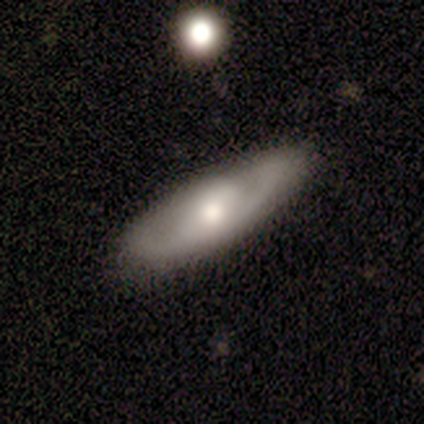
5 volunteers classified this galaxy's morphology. Smooth or featured?
  - featured or disk: 80% *
  - smooth: 20%
  - star or artifact: 0%
Edge-on disk?
  - no: 100% *
  - yes: 0%
Bar?
  - weak: 75% *
  - no: 25%
  - strong: 0%
Spiral arms?
  - yes: 100% *
  - no: 0%
Spiral winding?
  - medium: 75% *
  - tight: 25%
  - loose: 0%
Spiral arm count?
  - 2: 50% *
  - 3: 25%
  - can't tell: 25%
  - 1: 0%
  - 4: 0%
  - more than 4: 0%
Bulge size?
  - moderate: 100% *
  - dominant: 0%
  - large: 0%
  - small: 0%
  - none: 0%
Merging?
  - none: 60% *
  - minor disturbance: 40%
  - major disturbance: 0%
  - merger: 0%